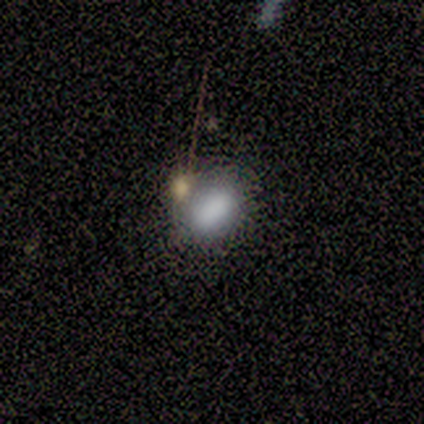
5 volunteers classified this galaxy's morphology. Volunteers were most divided on "merging": none: 60%, minor disturbance: 20%, merger: 20%, major disturbance: 0%. More confident: smooth or featured — smooth (100%); how rounded — in between (100%).